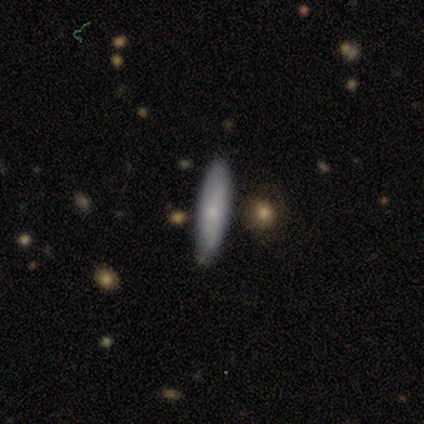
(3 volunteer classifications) Morphology: type=smooth (100%); roundness=cigar-shaped (67%); merging=none (100%).